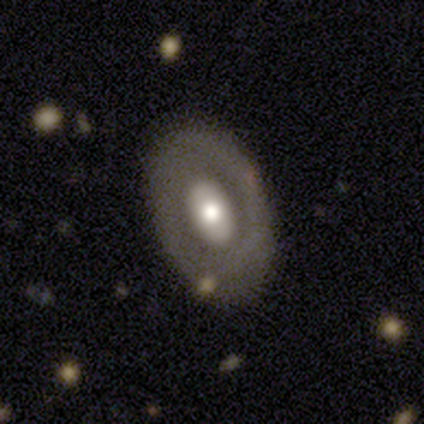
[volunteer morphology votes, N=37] featured or disk 54%, smooth 41%, star or artifact 5%. Down the decision tree: edge-on disk — no (100%); bar — no (75%); spiral arms — no (100%); bulge size — moderate (50%); merging — none (71%).